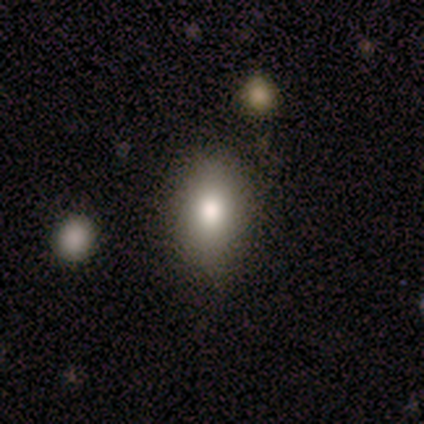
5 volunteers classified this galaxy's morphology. Smooth or featured?
  - smooth: 60% *
  - featured or disk: 40%
  - star or artifact: 0%
How rounded?
  - in between: 67% *
  - round: 33%
  - cigar-shaped: 0%
Merging?
  - none: 100% *
  - minor disturbance: 0%
  - major disturbance: 0%
  - merger: 0%